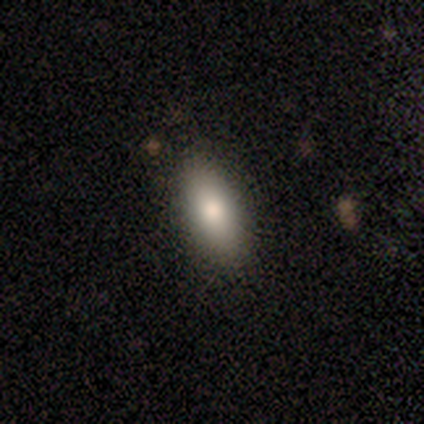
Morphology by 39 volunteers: type=smooth (74%); roundness=in between (86%); merging=none (89%).